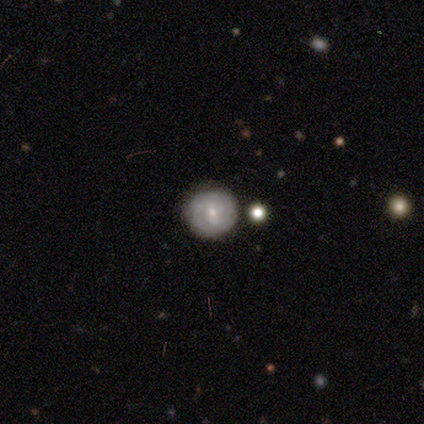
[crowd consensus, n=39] Smooth or featured: featured or disk — 54% (smooth — 44%)
Edge-on disk: no — 100%
Bar: no — 52% (strong — 33%)
Spiral arms: yes — 76% (no — 24%)
Spiral winding: tight — 50% (medium — 25%)
Spiral arm count: can't tell — 62% (2 — 25%)
Bulge size: small — 62% (moderate — 38%)
Merging: none — 97% (merger — 3%)